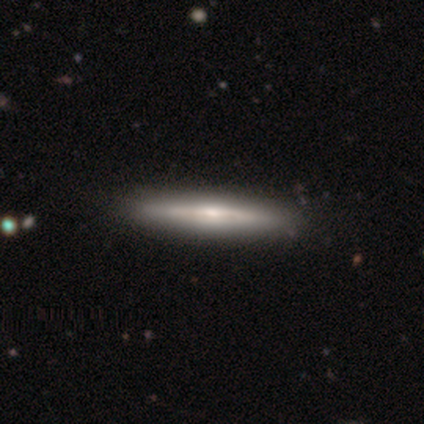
Smooth or featured? 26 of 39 (67%) said featured or disk. Edge-on disk? 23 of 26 (88%) said yes. Edge-on bulge? 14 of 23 (61%) said rounded. Merging? 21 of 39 (54%) said none.